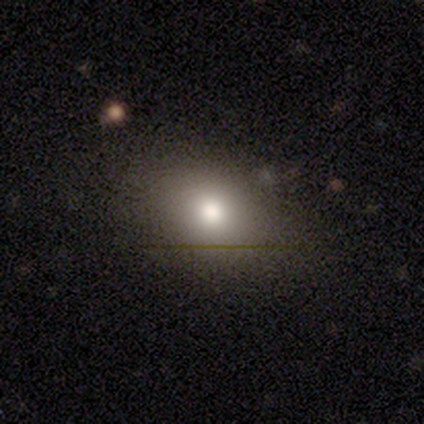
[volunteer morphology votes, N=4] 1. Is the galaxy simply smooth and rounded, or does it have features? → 75% smooth, 25% star or artifact, 0% featured or disk.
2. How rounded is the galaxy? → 67% in between, 33% round, 0% cigar-shaped.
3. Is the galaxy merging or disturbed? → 67% none, 33% major disturbance, 0% minor disturbance, 0% merger.